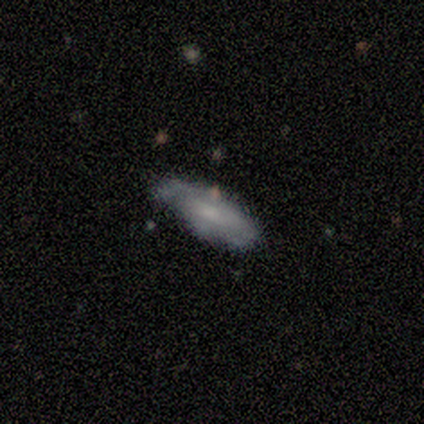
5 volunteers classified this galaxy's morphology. A smooth galaxy with no disk features (60%) that is in between round and cigar-shaped (100%). Merging: minor disturbance (60%).